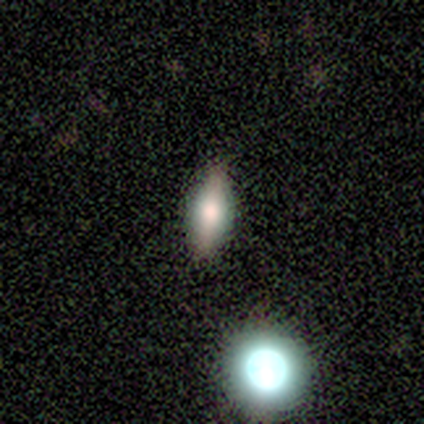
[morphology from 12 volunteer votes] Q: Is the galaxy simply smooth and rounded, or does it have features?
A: smooth — 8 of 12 (67%).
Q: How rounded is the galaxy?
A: in between — 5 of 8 (62%).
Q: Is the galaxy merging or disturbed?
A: none — 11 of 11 (100%).